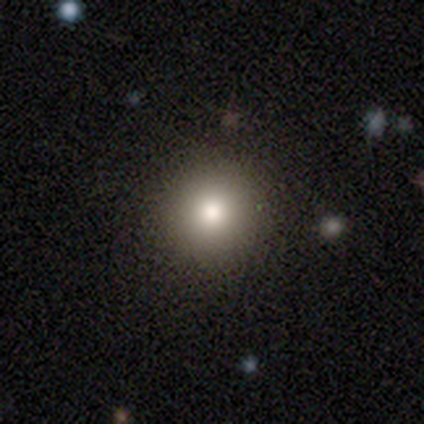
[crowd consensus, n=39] smooth_or_featured: smooth (p=0.82) [alt: featured or disk p=0.10]
how_rounded: round (p=0.97) [alt: in between p=0.03]
merging: none (p=0.92) [alt: minor disturbance p=0.08]